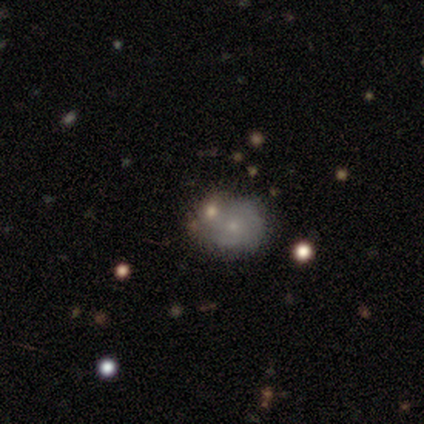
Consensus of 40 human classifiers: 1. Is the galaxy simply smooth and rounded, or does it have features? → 50% smooth, 45% featured or disk, 5% star or artifact.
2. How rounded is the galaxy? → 65% round, 35% in between, 0% cigar-shaped.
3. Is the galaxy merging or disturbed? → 47% none, 32% merger, 13% minor disturbance, 8% major disturbance.